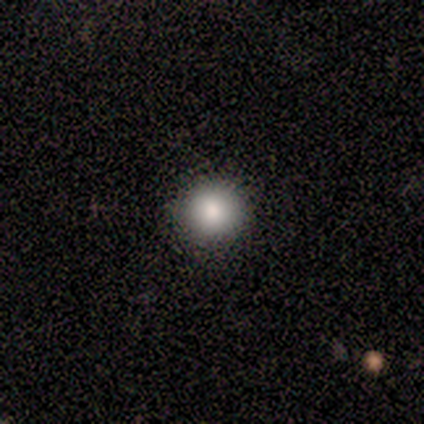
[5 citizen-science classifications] Smooth or featured? 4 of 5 (80%) said smooth. How rounded? 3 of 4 (75%) said round. Merging? 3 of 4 (75%) said none.